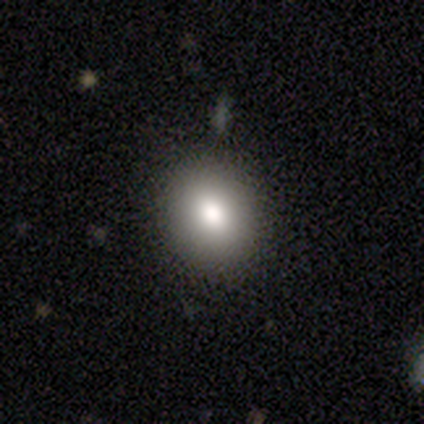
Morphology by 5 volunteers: type=smooth (100%); roundness=round (80%); merging=none (100%).